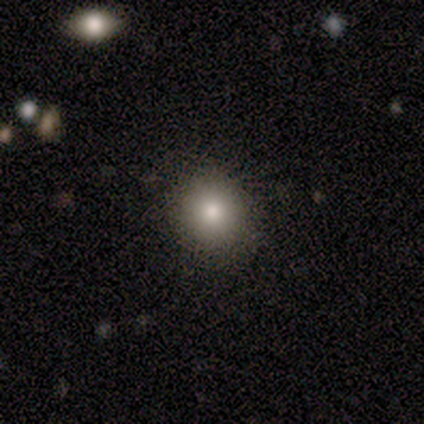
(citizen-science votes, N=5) Smooth or featured? 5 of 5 (100%) said smooth. How rounded? 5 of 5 (100%) said round. Merging? 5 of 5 (100%) said none.